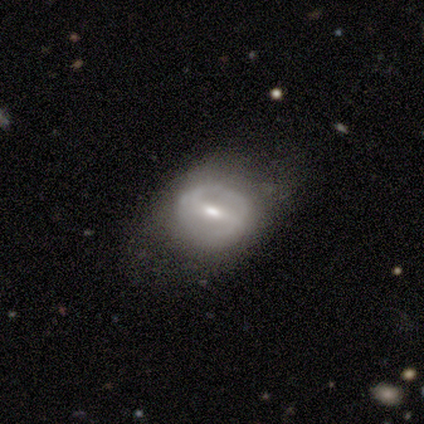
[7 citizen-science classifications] A featured or disk galaxy (100%) with a strong bar (57%), no spiral arms (57%) and a small central bulge (57%).

Vote fractions:
- Smooth or featured? featured or disk: 100% / smooth: 0% / star or artifact: 0%
- Edge-on disk? no: 100% / yes: 0%
- Bar? strong: 57% / weak: 43% / no: 0%
- Spiral arms? no: 57% / yes: 43%
- Bulge size? small: 57% / moderate: 43% / dominant: 0% / large: 0% / none: 0%
- Merging? none: 71% / minor disturbance: 14% / major disturbance: 14% / merger: 0%